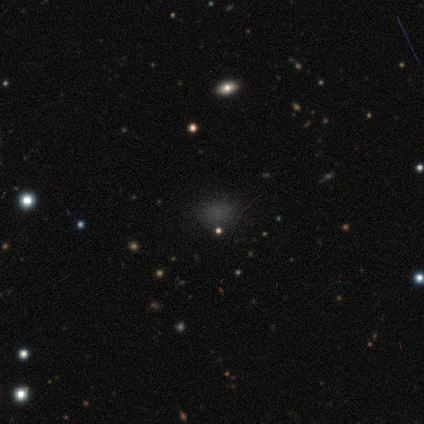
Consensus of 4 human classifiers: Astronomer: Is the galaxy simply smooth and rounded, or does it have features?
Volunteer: smooth — 50%, tied with star or artifact at 50%.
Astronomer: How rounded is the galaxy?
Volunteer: round — 50%, tied with in between at 50%.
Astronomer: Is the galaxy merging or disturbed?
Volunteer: none — 100%.